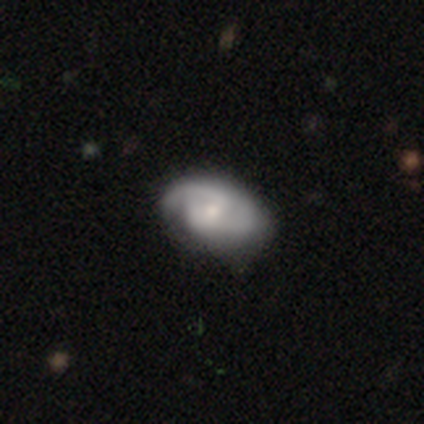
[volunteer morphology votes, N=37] Smooth or featured? 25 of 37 (68%) said featured or disk. Edge-on disk? 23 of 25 (92%) said no. Bar? 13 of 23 (57%) said weak. Spiral arms? 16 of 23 (70%) said yes. Spiral winding? 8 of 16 (50%) said medium. Spiral arm count? 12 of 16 (75%) said 2. Bulge size? 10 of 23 (43%, tied with small) said moderate. Merging? 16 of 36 (44%) said none.